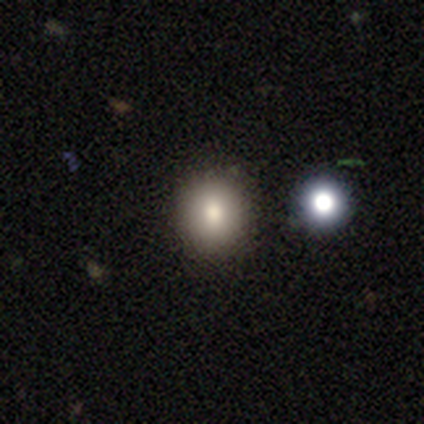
Morphology: type=smooth (75%); roundness=round (83%); merging=none (91%).